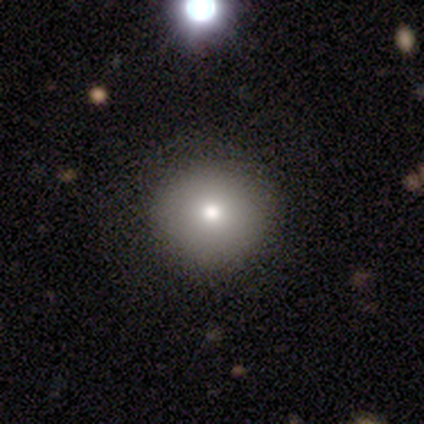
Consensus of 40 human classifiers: Q: Smooth or featured?
A: smooth (82%); runner-up: featured or disk (10%)
Q: How rounded?
A: round (91%); runner-up: in between (6%)
Q: Merging?
A: none (92%); runner-up: minor disturbance (3%)